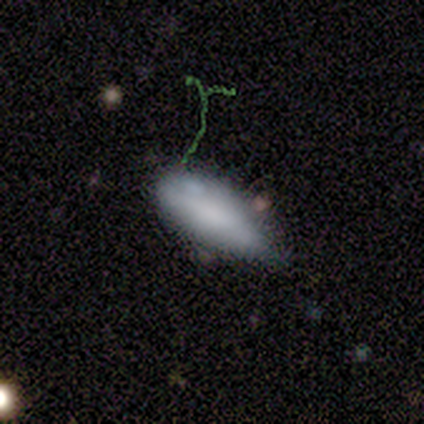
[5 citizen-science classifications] smooth 60%, featured or disk 40%, star or artifact 0%. Down the decision tree: how rounded — in between (67%); merging — minor disturbance (60%).